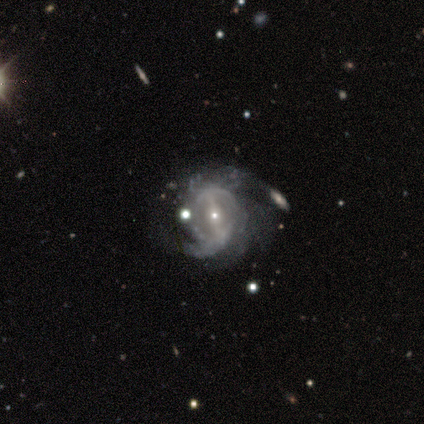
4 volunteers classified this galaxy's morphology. Smooth or featured: featured or disk — 100%
Edge-on disk: no — 100%
Bar: strong — 100%
Spiral arms: yes — 100%
Spiral winding: medium — 75% (tight — 25%)
Spiral arm count: 3 — 50% (2 — 25%)
Bulge size: small — 75% (moderate — 25%)
Merging: minor disturbance — 50% (none — 25%)